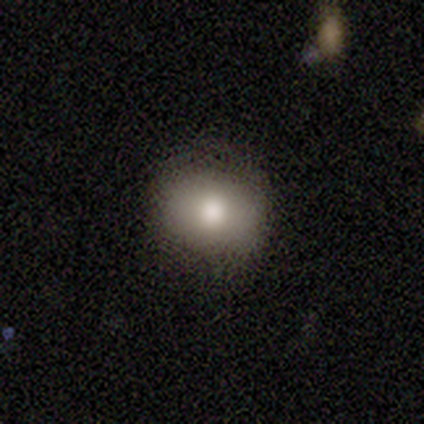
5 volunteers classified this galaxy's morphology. Volunteers were most divided on "smooth or featured": smooth: 60%, featured or disk: 40%, star or artifact: 0%. More confident: how rounded — round (100%); merging — none (100%).